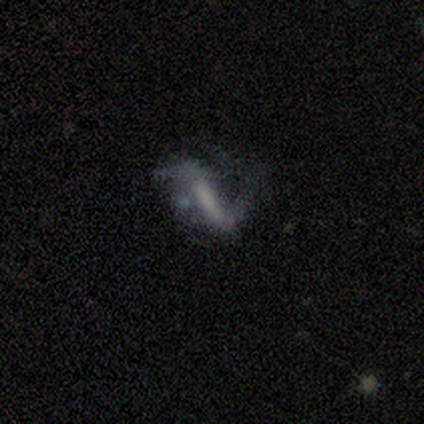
Smooth or featured: featured or disk — 80% (smooth — 20%)
Edge-on disk: no — 100%
Bar: strong — 50% (weak — 25%)
Spiral arms: yes — 100%
Spiral winding: medium — 50% (tied with loose — 50%)
Spiral arm count: 1 — 50% (2 — 25%)
Bulge size: none — 100%
Merging: major disturbance — 40% (none — 20%)